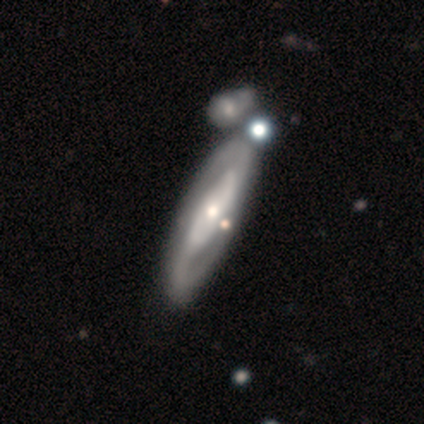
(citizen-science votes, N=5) featured or disk 100%, smooth 0%, star or artifact 0%. Down the decision tree: edge-on disk — no (80%); bar — no (75%); spiral arms — yes (50%, tied with no); spiral arm count — 2 (100%); spiral winding — loose (100%); bulge size — moderate (50%, tied with small); merging — none (80%).